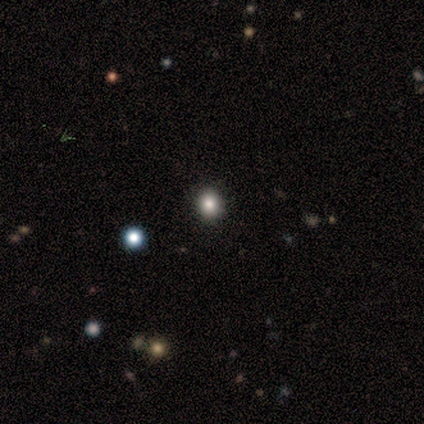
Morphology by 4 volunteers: smooth_or_featured: smooth (p=0.50) [tied with: star or artifact p=0.50]
how_rounded: round (p=1.00)
merging: none (p=1.00)